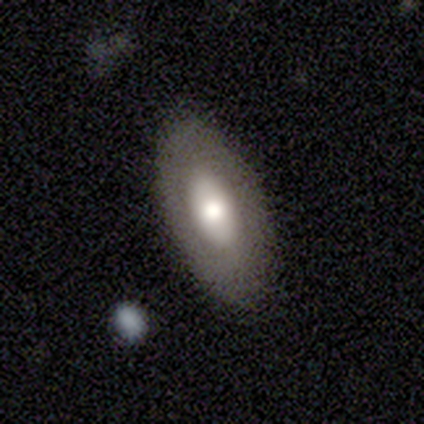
Smooth or featured? 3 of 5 (60%) said smooth. How rounded? 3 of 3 (100%) said in between. Merging? 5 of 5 (100%) said none.